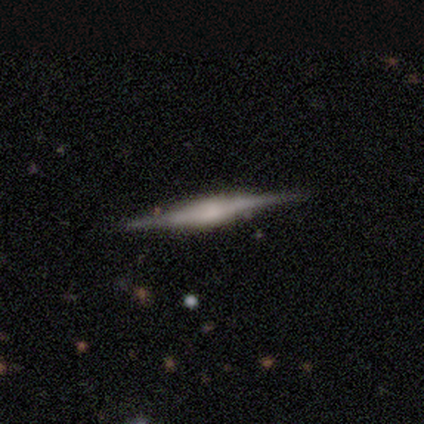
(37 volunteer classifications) Smooth or featured: featured or disk — 78% (smooth — 16%)
Edge-on disk: yes — 100%
Edge-on bulge: rounded — 45% (boxy — 34%)
Merging: none — 94% (minor disturbance — 6%)